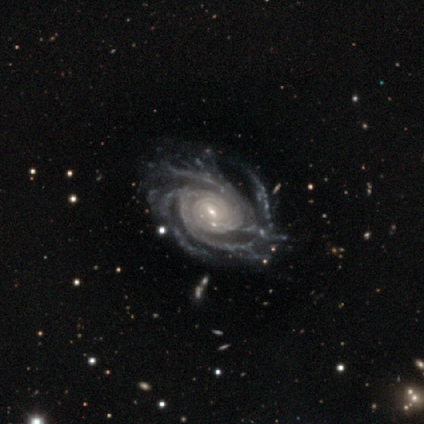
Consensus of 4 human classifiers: Smooth or featured? featured or disk (100%)
Edge-on disk? no (100%)
Bar? no (50%)
Spiral arms? yes (100%)
Spiral winding? tight (75%)
Spiral arm count? more than 4 (75%)
Bulge size? small (50%)
Merging? minor disturbance (50%)